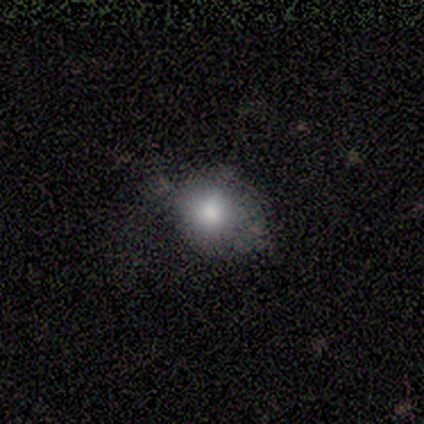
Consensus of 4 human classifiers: smooth_or_featured: smooth (p=1.00)
how_rounded: round (p=1.00)
merging: none (p=0.75) [alt: minor disturbance p=0.25]